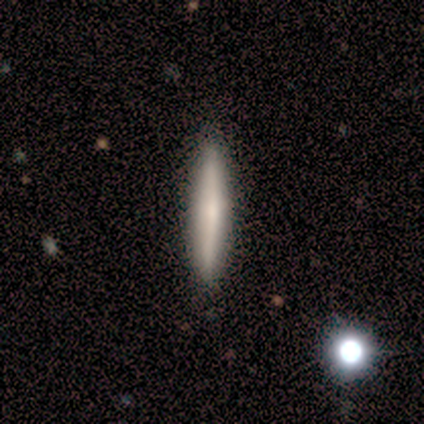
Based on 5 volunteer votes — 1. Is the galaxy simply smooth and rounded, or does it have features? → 80% smooth, 20% featured or disk, 0% star or artifact.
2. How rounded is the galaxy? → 100% cigar-shaped, 0% round, 0% in between.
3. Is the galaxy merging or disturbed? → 100% none, 0% minor disturbance, 0% major disturbance, 0% merger.